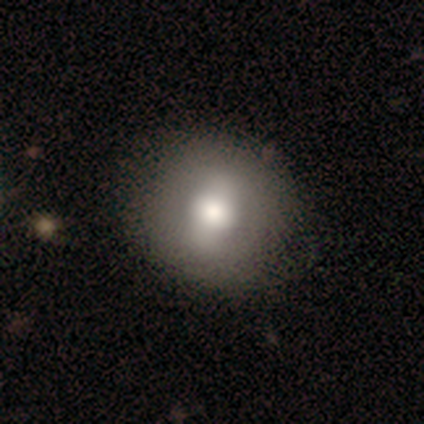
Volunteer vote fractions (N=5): Morphology: type=smooth (80%); roundness=round (100%); merging=none (60%).